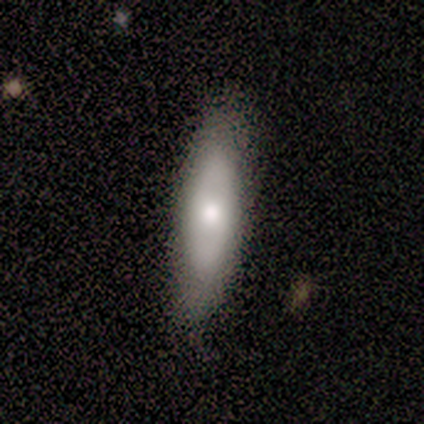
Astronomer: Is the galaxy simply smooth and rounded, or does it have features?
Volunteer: smooth — 80%.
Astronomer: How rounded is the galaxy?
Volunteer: in between — 50%, tied with cigar-shaped at 50%.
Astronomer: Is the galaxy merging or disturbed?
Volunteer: none — 60% (runner-up: minor disturbance, 40%).